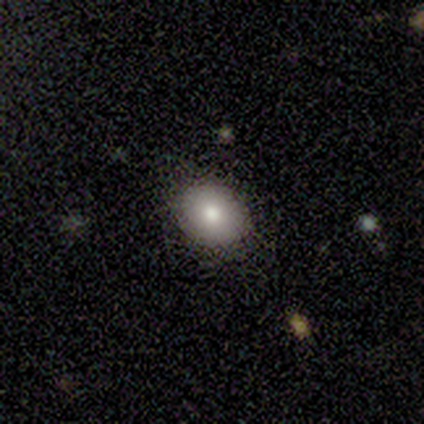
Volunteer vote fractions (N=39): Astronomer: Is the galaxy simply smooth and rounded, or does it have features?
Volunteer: smooth — 69%.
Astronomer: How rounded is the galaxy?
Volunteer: round — 56% (runner-up: in between, 44%).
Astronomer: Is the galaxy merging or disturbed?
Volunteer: none — 97%.